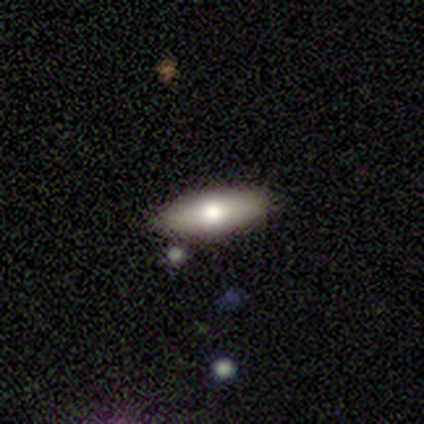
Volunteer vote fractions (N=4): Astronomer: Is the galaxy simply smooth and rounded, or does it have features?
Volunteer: smooth — 75%.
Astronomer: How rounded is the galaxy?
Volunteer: in between — 67%.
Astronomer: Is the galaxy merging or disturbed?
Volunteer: none — 100%.